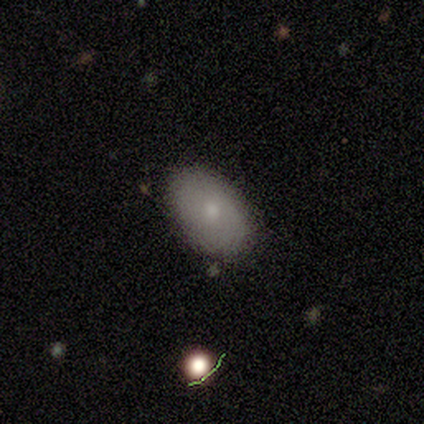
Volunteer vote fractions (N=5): A smooth galaxy with no disk features (100%) that is in between round and cigar-shaped (100%). Merging: none (80%).